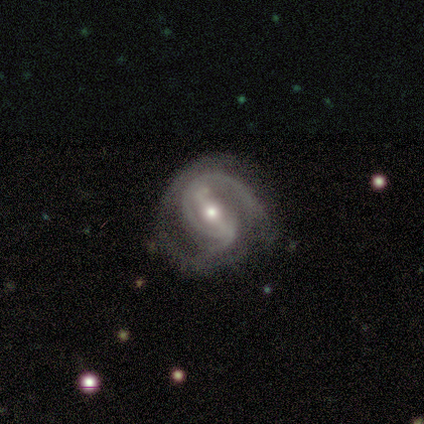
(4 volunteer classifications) Volunteers were most divided on "spiral winding" (3-way tie): tight: 33%, medium: 33%, loose: 33%. More confident: smooth or featured — featured or disk (100%); bar — strong (100%); spiral arms — yes (100%); edge-on disk — no (75%); merging — none (75%); spiral arm count — 2 (67%); bulge size — moderate (67%).